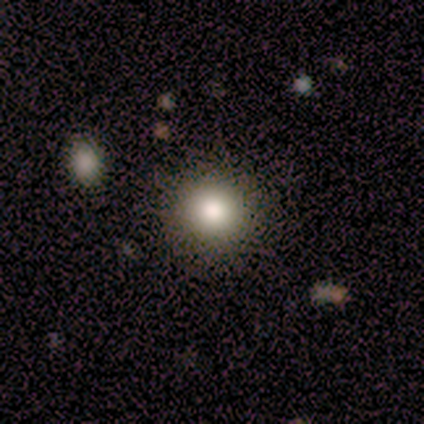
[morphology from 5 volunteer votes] This is clearly a smooth galaxy (100%). How rounded: clearly round (100%). Merging: clearly none (100%).